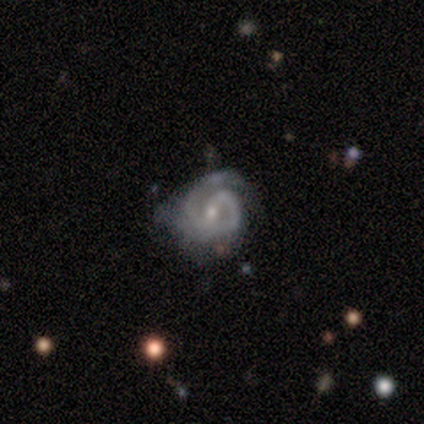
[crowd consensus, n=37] Overall: featured or disk (92%). Edge-on disk: no (100%). Bar: weak (53%; no 32%). Spiral arms: yes (97%). Spiral arm count: 2 (79%). Spiral winding: tight (48%, tied with medium). Bulge size: small (62%; moderate 35%). Merging: none (47%; minor disturbance 39%).